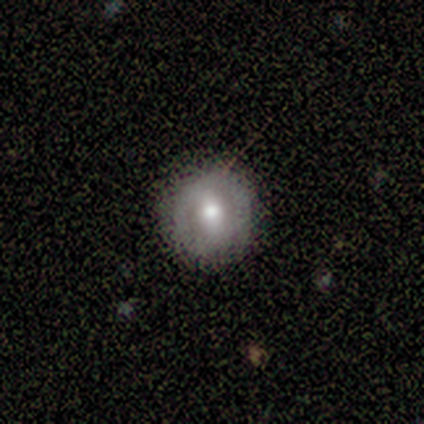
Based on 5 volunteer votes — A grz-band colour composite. It shows a featured or disk galaxy (60%) with a strong bar (33%, tied with weak and no), no spiral arms (67%) and a moderate central bulge (100%). Merging: none (100%).